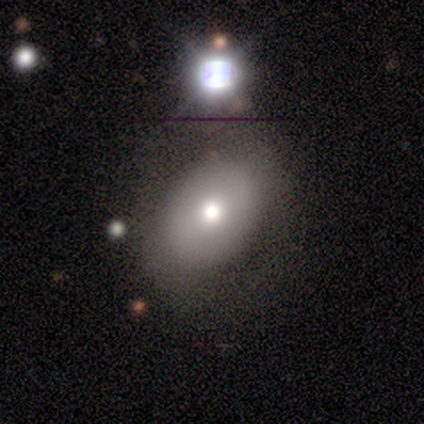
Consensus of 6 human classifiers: Overall: featured or disk (50%; star or artifact 33%). Edge-on disk: no (67%; yes 33%). Bar: no (100%). Spiral arms: no (100%). Bulge size: moderate (100%). Merging: none (75%).